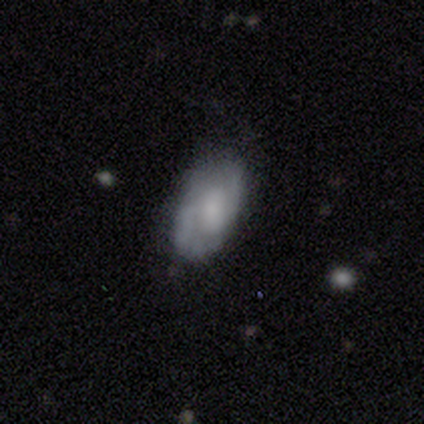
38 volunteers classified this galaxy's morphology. A smooth galaxy with no disk features (53%) that is in between round and cigar-shaped (95%).

Vote fractions:
- Smooth or featured? smooth: 53% / featured or disk: 47% / star or artifact: 0%
- How rounded? in between: 95% / round: 5% / cigar-shaped: 0%
- Merging? none: 63% / minor disturbance: 37% / major disturbance: 0% / merger: 0%